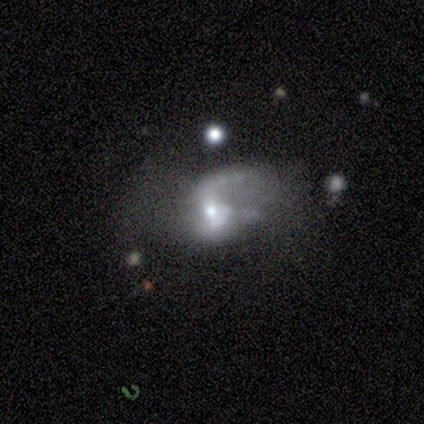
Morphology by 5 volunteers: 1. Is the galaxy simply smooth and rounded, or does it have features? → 80% featured or disk, 20% smooth, 0% star or artifact.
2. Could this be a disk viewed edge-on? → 100% no, 0% yes.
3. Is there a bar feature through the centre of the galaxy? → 75% no, 25% strong, 0% weak.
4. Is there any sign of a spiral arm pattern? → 100% yes, 0% no.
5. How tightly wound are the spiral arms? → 75% medium, 25% loose, 0% tight.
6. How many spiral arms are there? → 100% 2, 0% 1, 0% 3, 0% 4, 0% more than 4, 0% can't tell.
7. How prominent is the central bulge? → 50% moderate (tied), 50% small (tied), 0% dominant, 0% large, 0% none.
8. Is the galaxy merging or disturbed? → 100% major disturbance, 0% none, 0% minor disturbance, 0% merger.